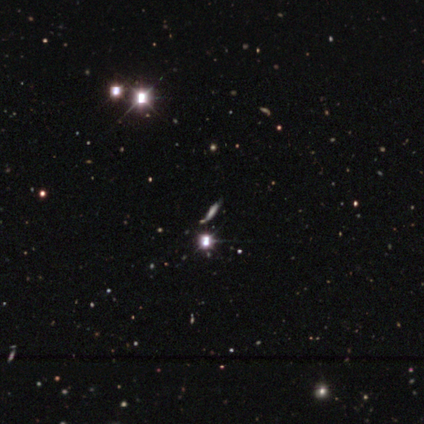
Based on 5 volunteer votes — This is likely a smooth galaxy (60%). How rounded: likely cigar-shaped (67%). Merging: likely none (67%).